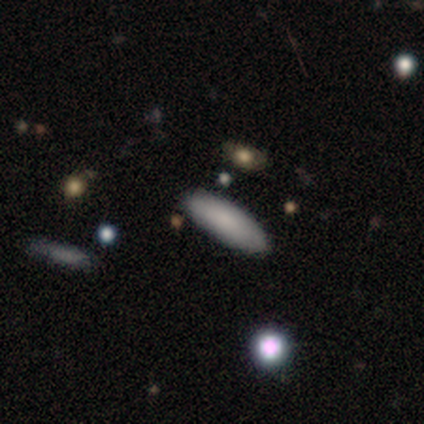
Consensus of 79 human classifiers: smooth_or_featured: smooth (p=0.85) [alt: featured or disk p=0.11]
how_rounded: in between (p=0.64) [alt: cigar-shaped p=0.36]
merging: none (p=0.45) [alt: merger p=0.16]